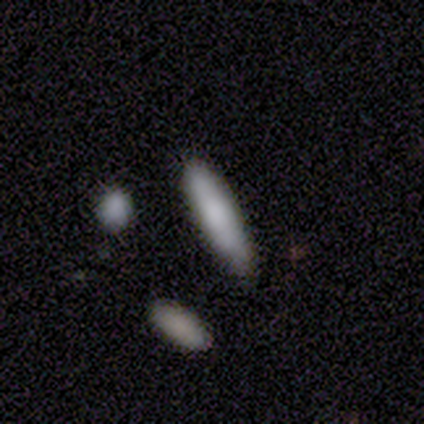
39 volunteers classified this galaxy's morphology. A smooth galaxy with no disk features (92%) that is cigar-shaped (86%). Merging: none (72%).